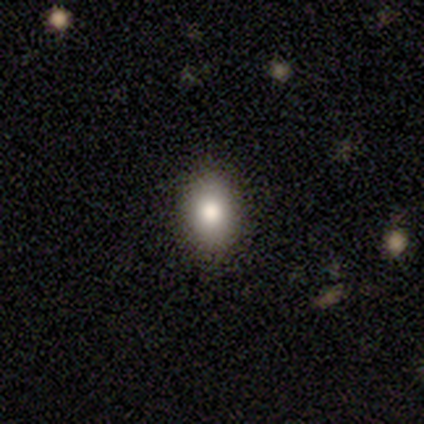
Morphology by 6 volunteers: Smooth or featured?
  - smooth: 67% *
  - featured or disk: 17%
  - star or artifact: 17%
How rounded?
  - in between: 100% *
  - round: 0%
  - cigar-shaped: 0%
Merging?
  - none: 100% *
  - minor disturbance: 0%
  - major disturbance: 0%
  - merger: 0%